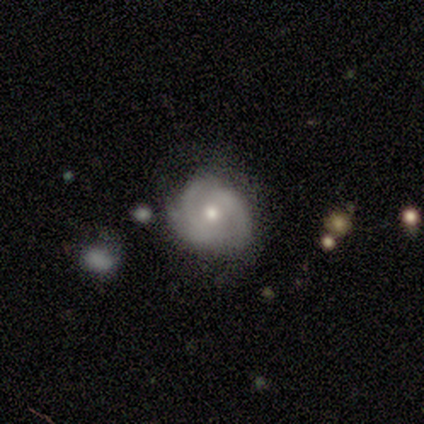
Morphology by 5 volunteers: Q: Smooth or featured?
A: featured or disk (100%)
Q: Edge-on disk?
A: no (100%)
Q: Bar?
A: no (60%); runner-up: weak (40%)
Q: Spiral arms?
A: yes (60%); runner-up: no (40%)
Q: Spiral winding?
A: medium (100%)
Q: Spiral arm count?
A: 2 (67%); runner-up: can't tell (33%)
Q: Bulge size?
A: moderate (80%); runner-up: small (20%)
Q: Merging?
A: minor disturbance (60%); runner-up: none (40%)